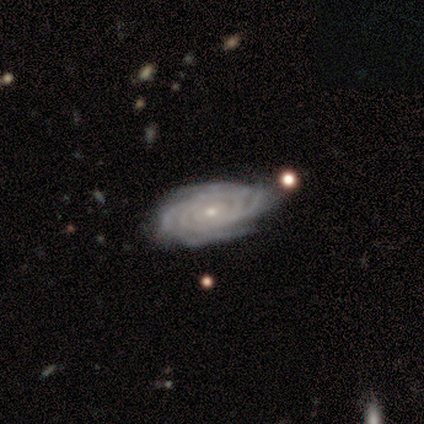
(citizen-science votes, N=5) This appears to be a featured or disk galaxy (100%) with no bar (100%), more than 4 (40%, tied with can't tell) tight (80%) spiral arms (100%) and a small central bulge (60%). Merging: none (100%).